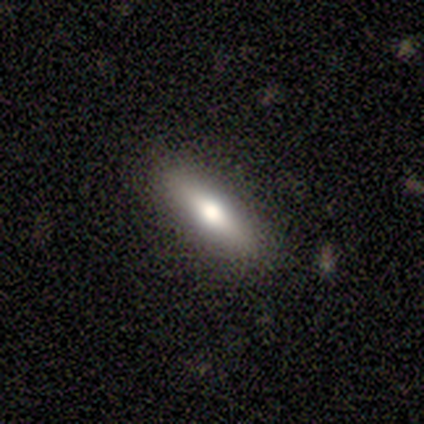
A featured or disk galaxy (60%) with no bar (100%), no spiral arms (100%) and a moderate central bulge (100%).

Vote fractions:
- Smooth or featured? featured or disk: 60% / smooth: 40% / star or artifact: 0%
- Edge-on disk? no: 67% / yes: 33%
- Bar? no: 100% / strong: 0% / weak: 0%
- Spiral arms? no: 100% / yes: 0%
- Bulge size? moderate: 100% / dominant: 0% / large: 0% / small: 0% / none: 0%
- Merging? none: 100% / minor disturbance: 0% / major disturbance: 0% / merger: 0%